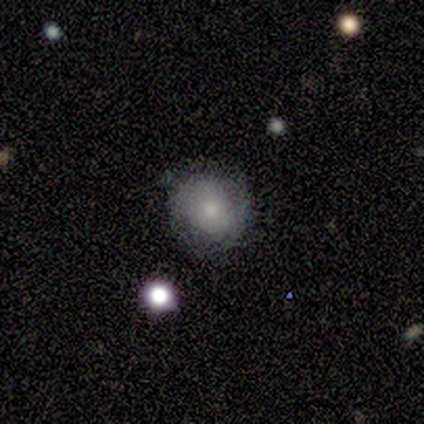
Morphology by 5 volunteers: smooth 80%, star or artifact 20%, featured or disk 0%. Down the decision tree: how rounded — round (50%, tied with in between); merging — none (100%).